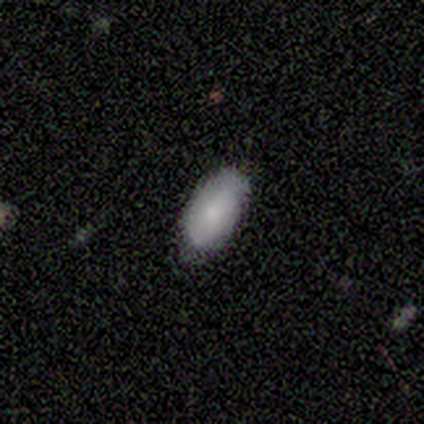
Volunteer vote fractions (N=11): Morphology: type=smooth (82%); roundness=in between (100%); merging=none (80%).